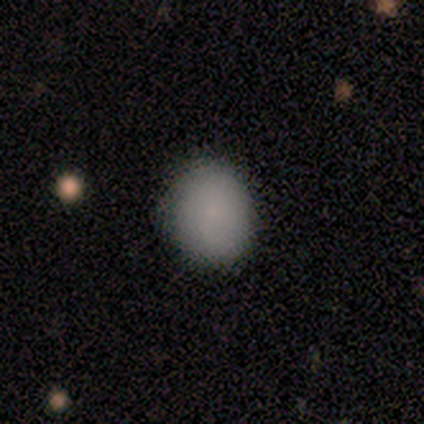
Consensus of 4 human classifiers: This is clearly a smooth galaxy (100%). How rounded: likely round (75%). Merging: likely none (75%).